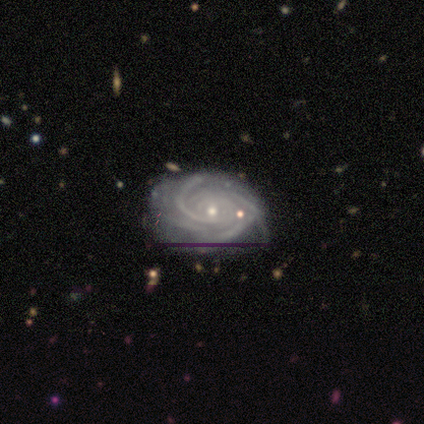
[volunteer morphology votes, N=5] smooth_or_featured: featured or disk (p=1.00)
disk_edge_on: no (p=0.80) [alt: yes p=0.20]
bar: weak (p=0.50) [alt: strong p=0.25]
has_spiral_arms: yes (p=1.00)
spiral_winding: tight (p=0.75) [alt: loose p=0.25]
spiral_arm_count: 2 (p=0.25) [tied with: 3 p=0.25, 4 p=0.25, can't tell p=0.25]
bulge_size: moderate (p=0.50) [tied with: small p=0.50]
merging: none (p=0.60) [alt: major disturbance p=0.20]